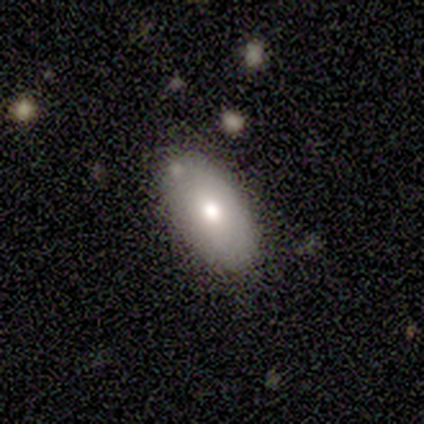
This is likely a smooth galaxy (71%). How rounded: clearly in between (100%). Merging: clearly none (83%).